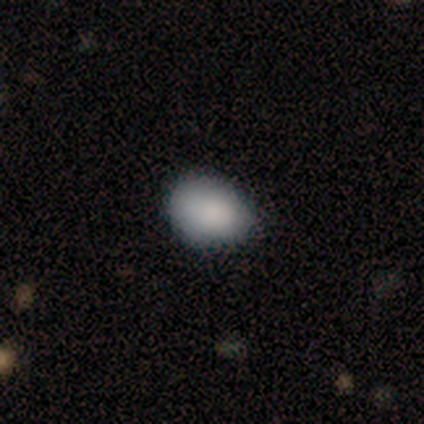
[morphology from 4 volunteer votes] smooth-or-featured: smooth: 75% | star or artifact: 25% | featured or disk: 0%
  how-rounded: round: 67% | in between: 33% | cigar-shaped: 0%
  merging: none: 67% | minor disturbance: 33% | major disturbance: 0% | merger: 0%